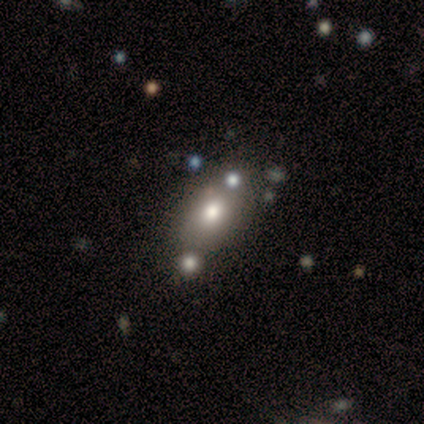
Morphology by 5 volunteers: Smooth or featured?
  - smooth: 100% *
  - featured or disk: 0%
  - star or artifact: 0%
How rounded?
  - in between: 80% *
  - cigar-shaped: 20%
  - round: 0%
Merging?
  - none: 60% *
  - minor disturbance: 20%
  - merger: 20%
  - major disturbance: 0%